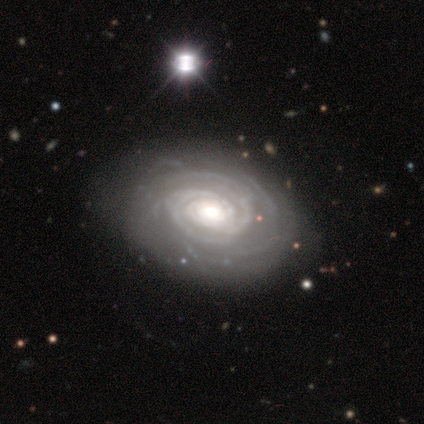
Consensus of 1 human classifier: This is clearly a featured or disk galaxy (100%). It is clearly not viewed edge-on (100%). Bar: clearly weak (100%). Spiral arm pattern: clearly yes (100%). Spiral arm count: clearly 3 (100%). Spiral winding: clearly tight (100%). Central bulge: clearly moderate (100%). Merging: clearly none (100%).